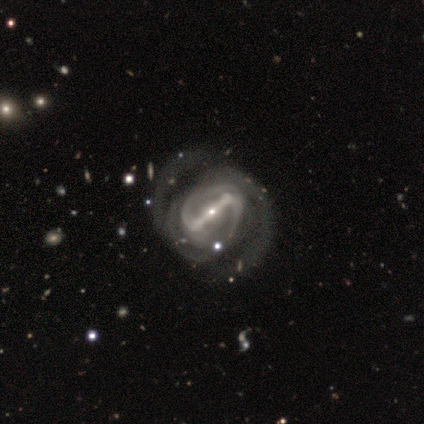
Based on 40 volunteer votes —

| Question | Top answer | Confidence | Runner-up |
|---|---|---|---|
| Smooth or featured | featured or disk | 95% | smooth (2%) |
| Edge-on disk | no | 97% | yes (3%) |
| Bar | strong | 86% | no (8%) |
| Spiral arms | yes | 100% | — |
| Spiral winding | medium | 51% | tight (32%) |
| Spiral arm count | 2 | 65% | can't tell (16%) |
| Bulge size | small | 73% | moderate (22%) |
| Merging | none | 44% | major disturbance (15%) |